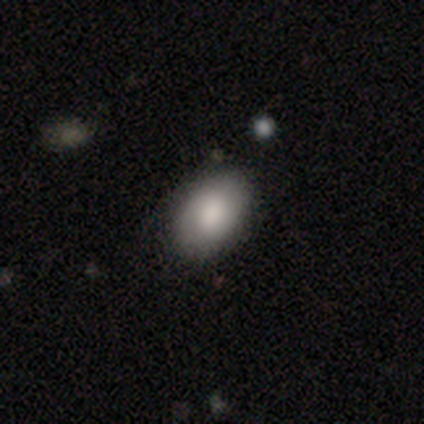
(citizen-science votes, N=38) Overall: smooth (87%). How rounded: in between (94%). Merging: none (86%).